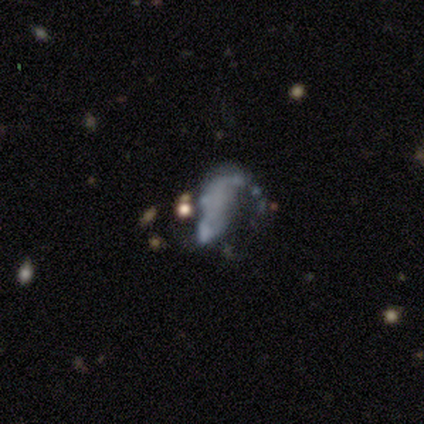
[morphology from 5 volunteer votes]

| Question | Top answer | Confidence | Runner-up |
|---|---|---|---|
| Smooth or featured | featured or disk | 80% | smooth (20%) |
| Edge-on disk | no | 100% | — |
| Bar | no | 75% | weak (25%) |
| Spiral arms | no | 75% | yes (25%) |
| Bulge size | none | 75% | small (25%) |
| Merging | major disturbance | 60% | none (20%) |